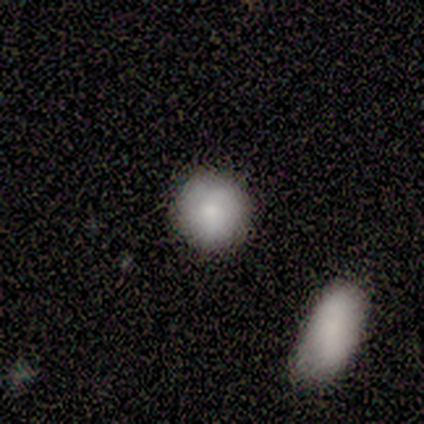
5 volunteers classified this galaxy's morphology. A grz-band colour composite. It shows a smooth galaxy with no disk features (80%) that is round (75%). Merging: none (100%).